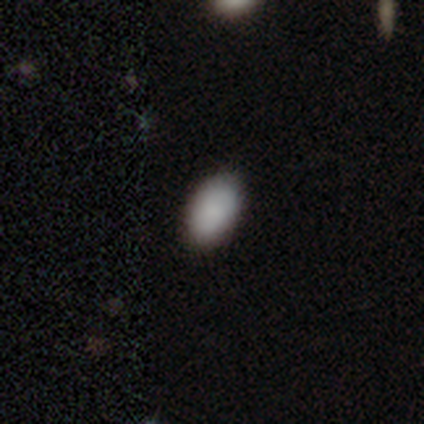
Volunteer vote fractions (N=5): This appears to be a smooth galaxy with no disk features (100%) that is in between round and cigar-shaped (80%). Merging: none (100%).